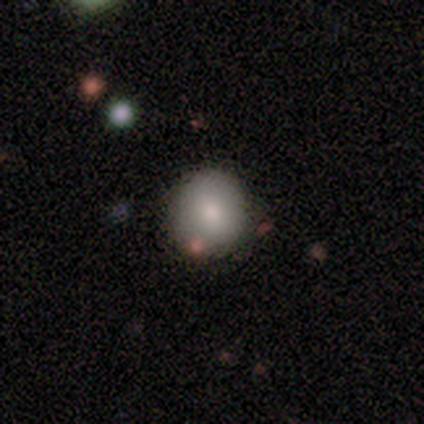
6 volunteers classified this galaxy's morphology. Smooth or featured?
  - smooth: 100% *
  - featured or disk: 0%
  - star or artifact: 0%
How rounded?
  - round: 100% *
  - in between: 0%
  - cigar-shaped: 0%
Merging?
  - none: 83% *
  - merger: 17%
  - minor disturbance: 0%
  - major disturbance: 0%